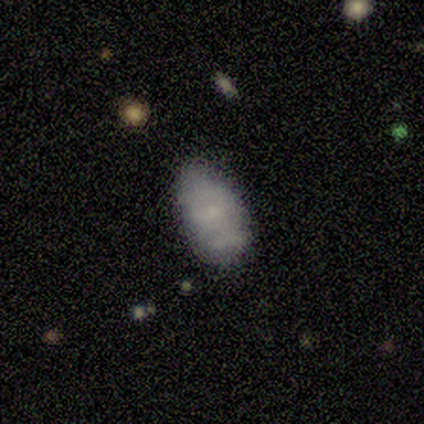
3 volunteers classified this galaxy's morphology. Smooth or featured? smooth (67%)
How rounded? in between (100%)
Merging? none (100%)